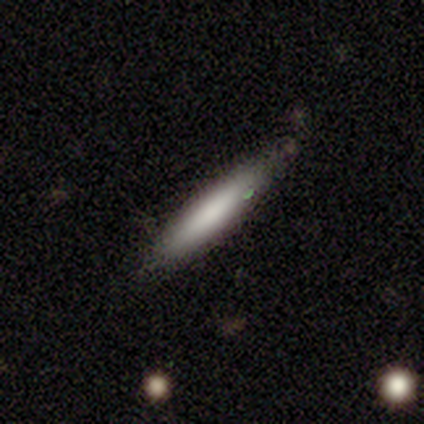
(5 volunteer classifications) Smooth or featured? 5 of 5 (100%) said smooth. How rounded? 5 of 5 (100%) said cigar-shaped. Merging? 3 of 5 (60%) said none.